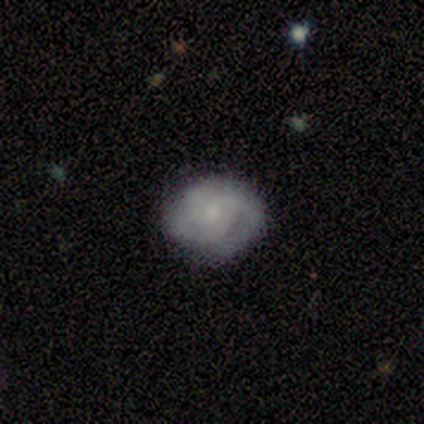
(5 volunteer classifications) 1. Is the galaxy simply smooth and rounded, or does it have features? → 80% featured or disk, 20% smooth, 0% star or artifact.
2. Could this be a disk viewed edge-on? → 100% no, 0% yes.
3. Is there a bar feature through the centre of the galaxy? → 50% no, 25% strong, 25% weak.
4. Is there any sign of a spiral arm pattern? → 75% yes, 25% no.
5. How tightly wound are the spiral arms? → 100% medium, 0% tight, 0% loose.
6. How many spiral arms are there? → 33% 1 (tied), 33% 2 (tied), 33% 3 (tied), 0% 4, 0% more than 4, 0% can't tell.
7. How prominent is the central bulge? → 50% moderate, 25% small, 25% none, 0% dominant, 0% large.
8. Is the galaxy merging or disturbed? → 80% none, 20% minor disturbance, 0% major disturbance, 0% merger.